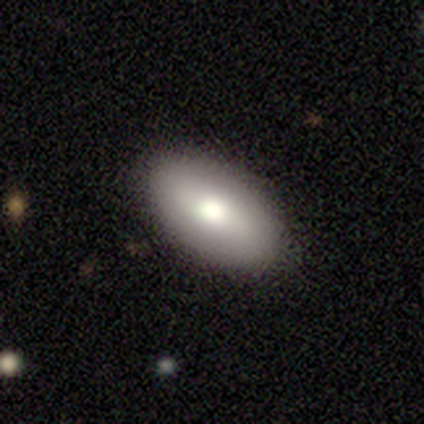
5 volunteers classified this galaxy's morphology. This is clearly a smooth galaxy (80%). How rounded: clearly in between (100%). Merging: clearly none (100%).